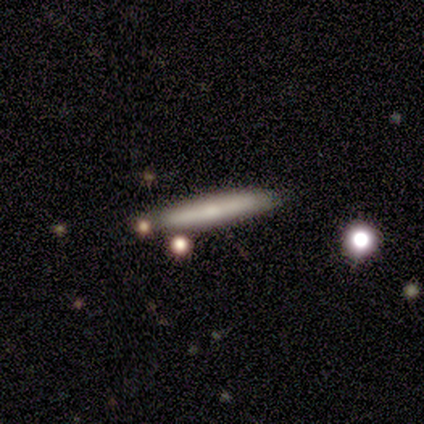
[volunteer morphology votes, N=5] Q: Smooth or featured?
A: smooth (60%); runner-up: featured or disk (40%)
Q: How rounded?
A: cigar-shaped (100%)
Q: Merging?
A: none (80%); runner-up: minor disturbance (20%)